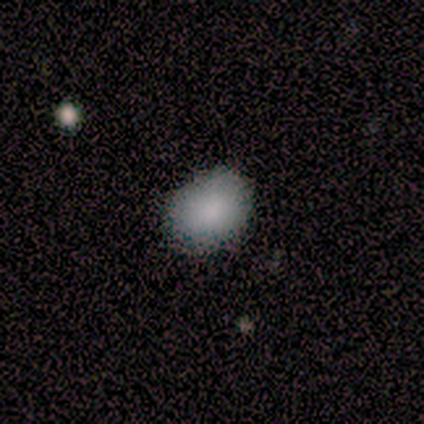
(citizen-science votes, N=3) Morphology: type=smooth (100%); roundness=in between (67%); merging=none (67%).